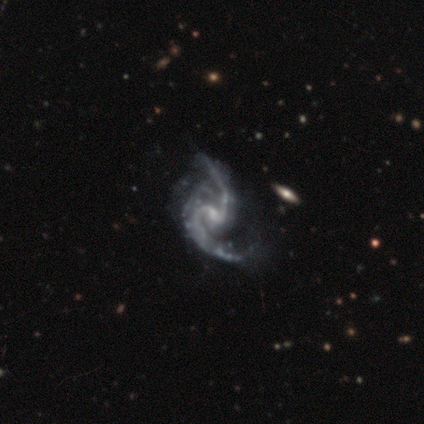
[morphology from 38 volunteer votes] A featured or disk galaxy (97%) with a weak bar (62%), 2 (84%) loose (57%) spiral arms (100%) and a small central bulge (62%). Merging: none (37%).